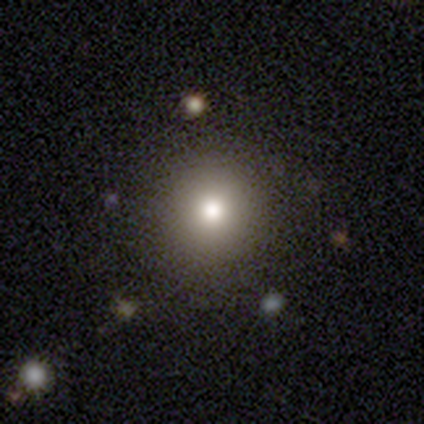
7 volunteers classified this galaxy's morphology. smooth_or_featured: smooth (p=0.86) [alt: star or artifact p=0.14]
how_rounded: round (p=1.00)
merging: none (p=0.67) [alt: minor disturbance p=0.17]